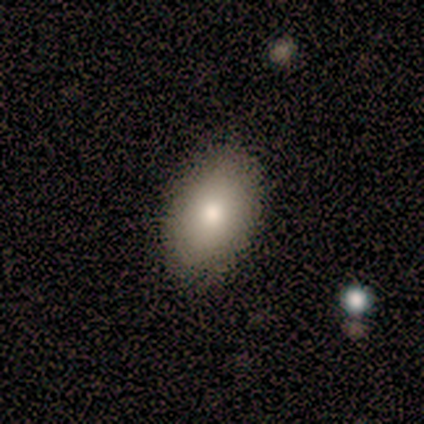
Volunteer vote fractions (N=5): Q: Smooth or featured?
A: smooth (100%)
Q: How rounded?
A: in between (100%)
Q: Merging?
A: none (100%)